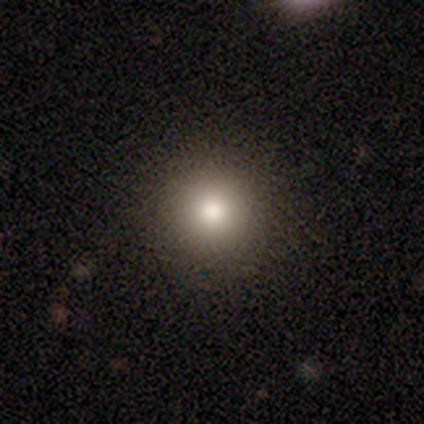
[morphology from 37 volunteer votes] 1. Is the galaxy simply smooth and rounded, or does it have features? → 73% smooth, 22% star or artifact, 5% featured or disk.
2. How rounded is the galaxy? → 96% round, 4% cigar-shaped, 0% in between.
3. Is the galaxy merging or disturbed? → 90% none, 10% minor disturbance, 0% major disturbance, 0% merger.